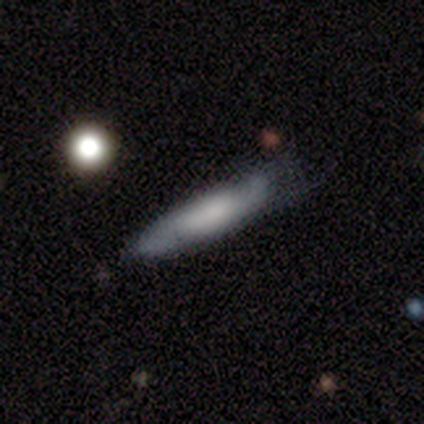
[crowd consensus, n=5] Q: Smooth or featured?
A: smooth (60%); runner-up: featured or disk (40%)
Q: How rounded?
A: in between (67%); runner-up: cigar-shaped (33%)
Q: Merging?
A: none (80%); runner-up: minor disturbance (20%)